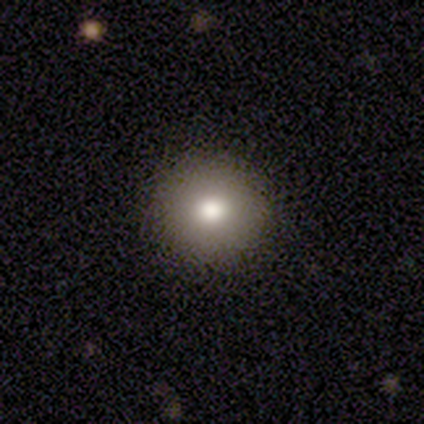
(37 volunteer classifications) Volunteers were most divided on "smooth or featured": smooth: 78%, featured or disk: 14%, star or artifact: 8%. More confident: how rounded — round (97%); merging — none (94%).